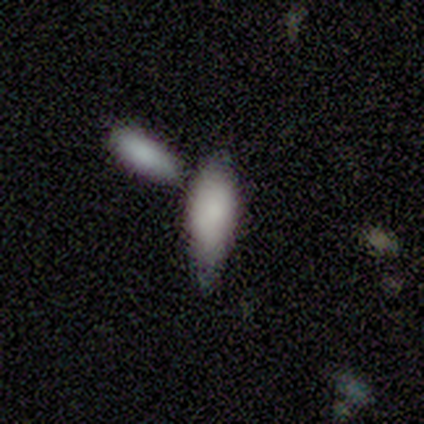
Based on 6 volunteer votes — This is clearly a smooth galaxy (83%). How rounded: clearly in between (80%). Merging: possibly none (50%).